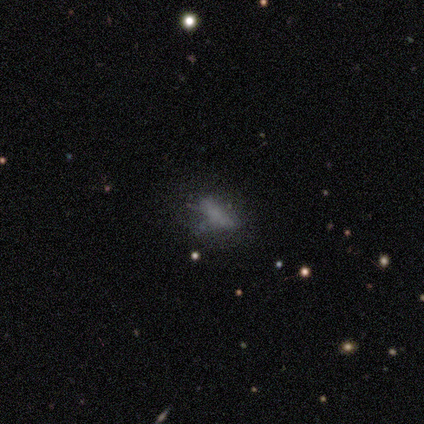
smooth-or-featured: smooth: 60% | featured or disk: 20% | star or artifact: 20%
  how-rounded: in between: 67% | cigar-shaped: 33% | round: 0%
  merging: none: 50% (tied) | major disturbance: 50% (tied) | minor disturbance: 0% | merger: 0%